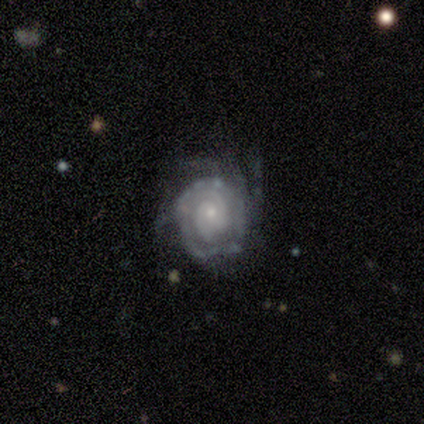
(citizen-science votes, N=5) Smooth or featured? 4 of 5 (80%) said featured or disk. Edge-on disk? 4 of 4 (100%) said no. Bar? 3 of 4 (75%) said no. Spiral arms? 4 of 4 (100%) said yes. Spiral winding? 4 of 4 (100%) said tight. Spiral arm count? 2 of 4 (50%) said can't tell. Bulge size? 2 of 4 (50%, tied with small) said moderate. Merging? 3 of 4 (75%) said none.